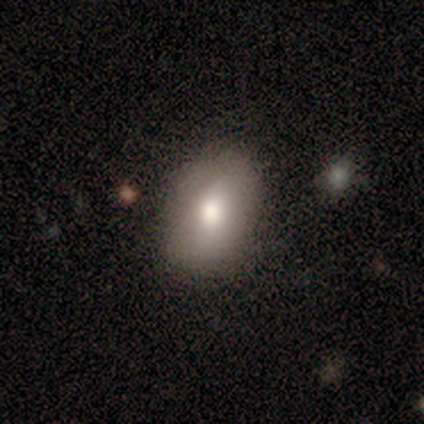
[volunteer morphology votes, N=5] This appears to be a smooth galaxy with no disk features (100%) that is in between round and cigar-shaped (100%). Merging: none (60%).